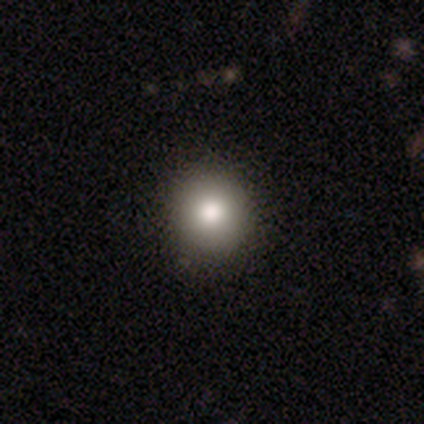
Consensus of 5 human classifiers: A smooth galaxy with no disk features (60%) that is round (100%).

Vote fractions:
- Smooth or featured? smooth: 60% / featured or disk: 40% / star or artifact: 0%
- How rounded? round: 100% / in between: 0% / cigar-shaped: 0%
- Merging? none: 100% / minor disturbance: 0% / major disturbance: 0% / merger: 0%